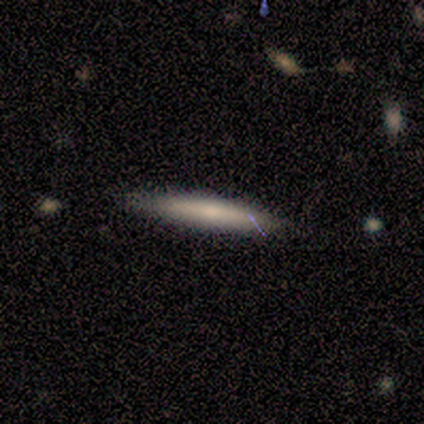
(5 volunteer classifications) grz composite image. It shows a smooth galaxy with no disk features (80%) that is cigar-shaped (100%). Merging: none (100%).